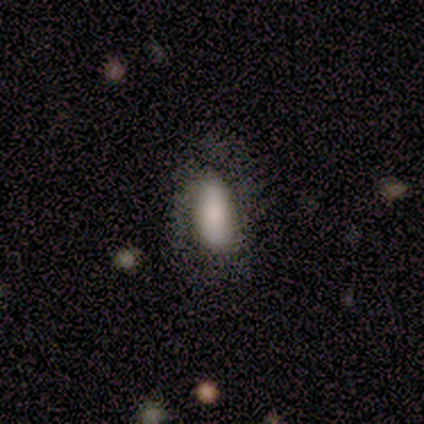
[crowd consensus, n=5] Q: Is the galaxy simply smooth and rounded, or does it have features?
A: smooth — 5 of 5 (100%).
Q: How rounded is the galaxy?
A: in between — 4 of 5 (80%).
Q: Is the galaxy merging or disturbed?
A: none — 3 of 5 (60%).